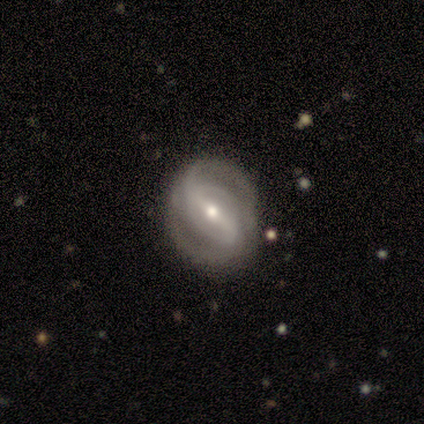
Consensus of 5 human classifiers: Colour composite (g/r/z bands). It shows a featured or disk galaxy (80%) with a strong bar (50%), 2 (75%) medium (75%) spiral arms (100%) and a moderate central bulge (50%, tied with small). Merging: none (100%).